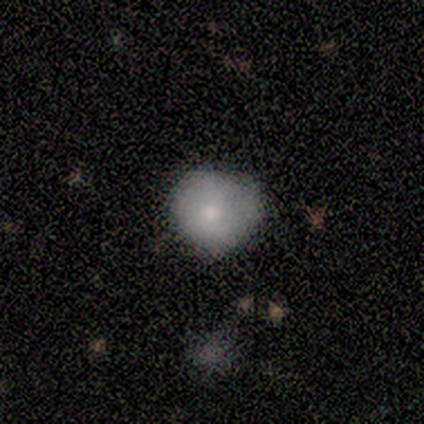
Volunteers were most divided on "smooth or featured": smooth: 67%, featured or disk: 33%, star or artifact: 0%. More confident: how rounded — round (83%); merging — none (78%).